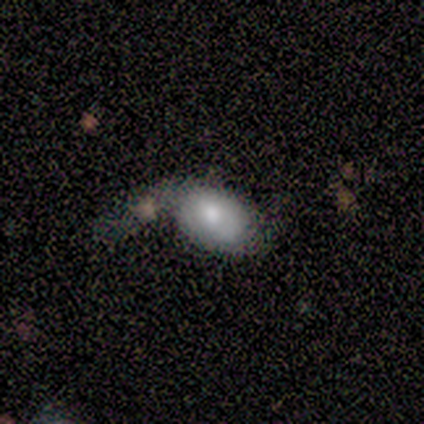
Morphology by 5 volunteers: smooth 80%, featured or disk 20%, star or artifact 0%. Down the decision tree: how rounded — round (50%, tied with in between); merging — none (40%, tied with major disturbance).